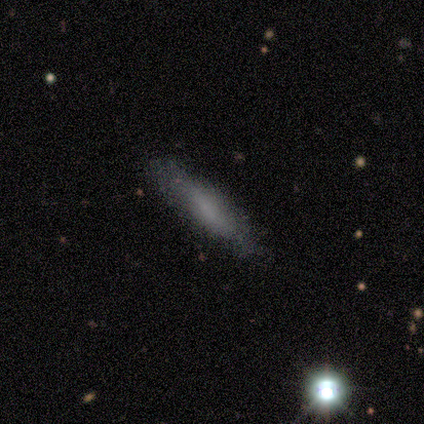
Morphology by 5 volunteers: smooth_or_featured: featured or disk (p=0.40) [tied with: star or artifact p=0.40]
disk_edge_on: yes (p=0.50) [tied with: no p=0.50]
edge_on_bulge: rounded (p=1.00)
merging: none (p=0.67) [alt: minor disturbance p=0.33]